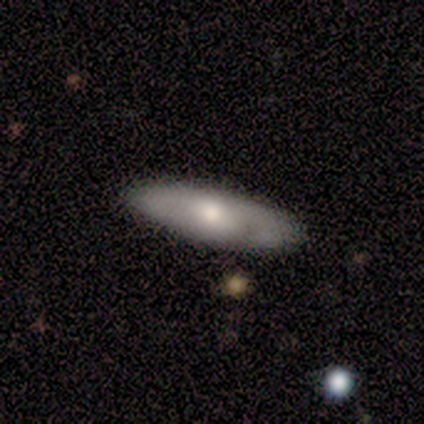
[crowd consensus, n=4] Q: Smooth or featured?
A: smooth (75%); runner-up: featured or disk (25%)
Q: How rounded?
A: cigar-shaped (67%); runner-up: in between (33%)
Q: Merging?
A: none (75%); runner-up: minor disturbance (25%)